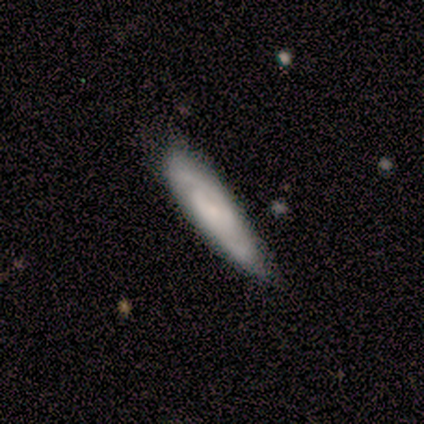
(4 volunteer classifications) This appears to be a featured or disk galaxy (75%) with no bar (100%), 2 (100%) medium (100%) spiral arms (100%) and a small central bulge (100%). Merging: none (67%).